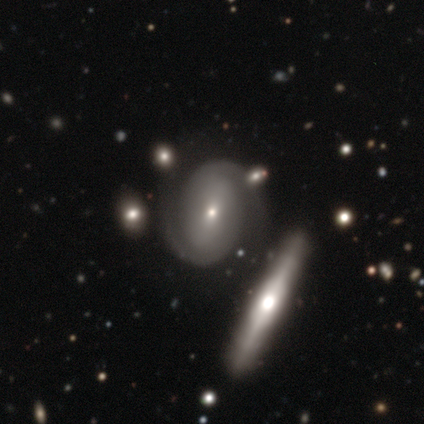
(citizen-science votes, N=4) This is clearly a featured or disk galaxy (100%). It is clearly not viewed edge-on (100%). Bar: possibly weak (50%). Spiral arm pattern: clearly yes (100%). Spiral arm count: likely 2 (75%). Spiral winding: likely tight (75%). Central bulge: likely small (75%). Merging: likely none (75%).